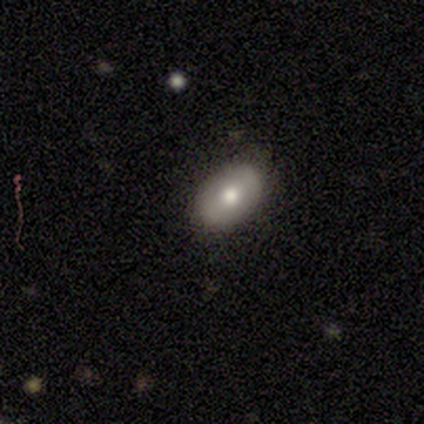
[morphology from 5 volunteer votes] Smooth or featured? 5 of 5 (100%) said smooth. How rounded? 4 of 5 (80%) said in between. Merging? 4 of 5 (80%) said none.